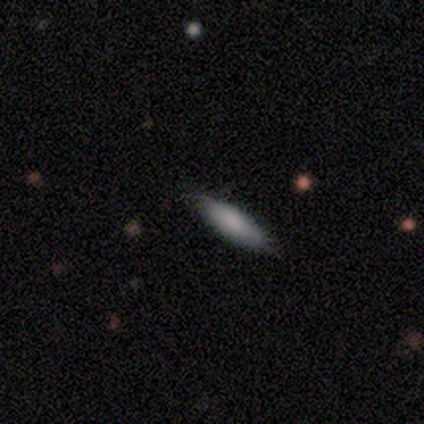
Smooth or featured: smooth — 100%
How rounded: in between — 50% (tied with cigar-shaped — 50%)
Merging: none — 100%